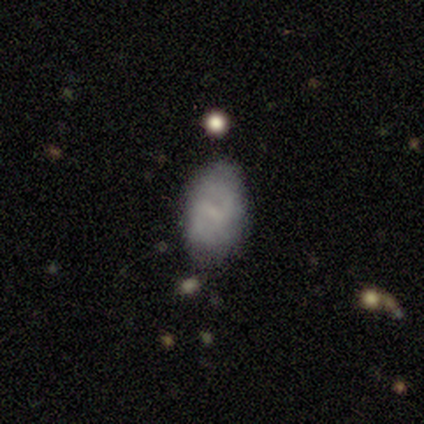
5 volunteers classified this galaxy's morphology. Volunteers were most divided on "smooth or featured": featured or disk: 60%, smooth: 40%, star or artifact: 0%. More confident: edge-on disk — no (100%); spiral winding — medium (100%); spiral arm count — 2 (100%); bar — weak (67%); spiral arms — yes (67%); bulge size — small (67%); merging — none (60%).